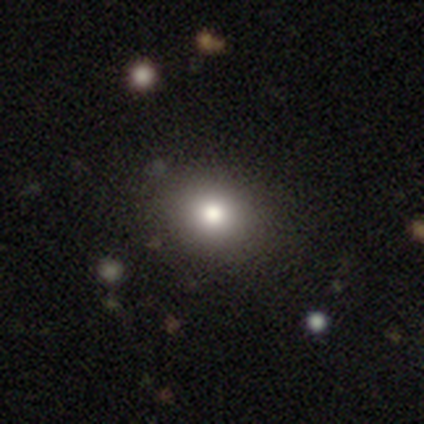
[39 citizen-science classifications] Overall: smooth (79%). How rounded: round (55%; in between 45%). Merging: none (82%).